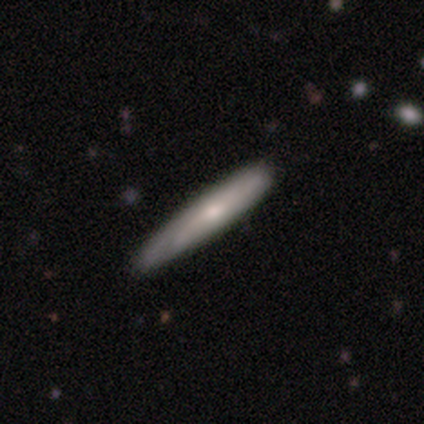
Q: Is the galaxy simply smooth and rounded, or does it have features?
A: smooth — 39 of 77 (51%).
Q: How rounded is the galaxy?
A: cigar-shaped — 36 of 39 (92%).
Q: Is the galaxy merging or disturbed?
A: none — 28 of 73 (38%).